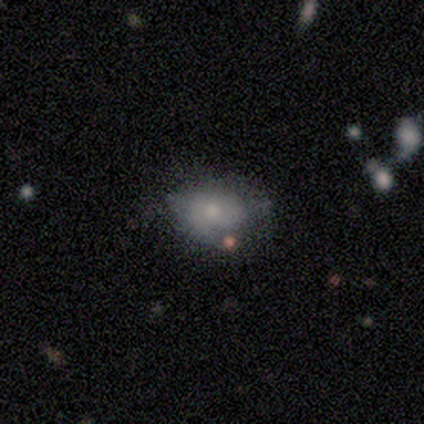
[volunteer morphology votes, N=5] Q: Smooth or featured?
A: smooth (100%)
Q: How rounded?
A: in between (80%); runner-up: round (20%)
Q: Merging?
A: minor disturbance (60%); runner-up: none (20%)